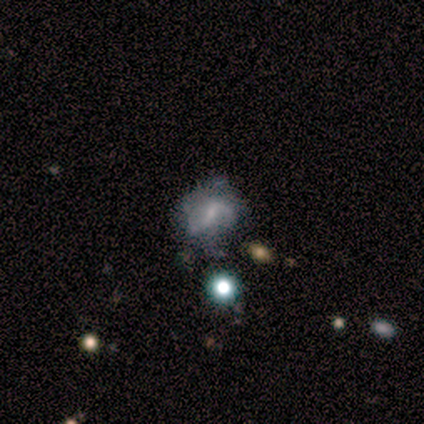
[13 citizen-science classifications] Morphology: type=featured or disk (69%); edge-on=no (100%); bar=weak (56%); spiral arms=yes (89%); winding=medium (88%); arm count=2 (62%); bulge=small (67%); merging=none (38%, tied with minor disturbance).